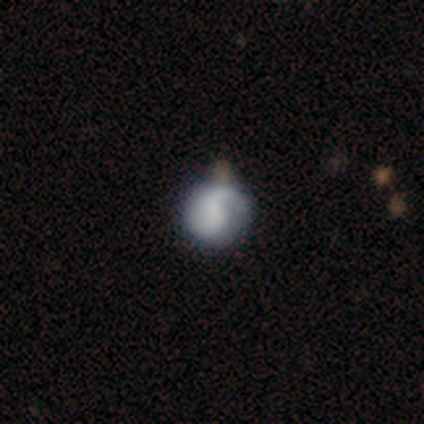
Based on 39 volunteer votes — Volunteers were most divided on "bulge size": small: 35%, none: 30%, dominant: 13%, moderate: 13%, large: 9%. Remaining: edge-on disk — no (96%); spiral arms — yes (87%); spiral arm count — 2 (65%); smooth or featured — featured or disk (62%); bar — no (52%); spiral winding — loose (45%); merging — none (42%).